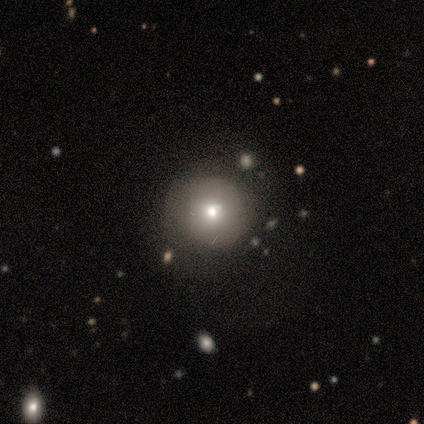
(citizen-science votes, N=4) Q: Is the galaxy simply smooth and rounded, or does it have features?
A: smooth — 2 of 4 (50%, tied with featured or disk).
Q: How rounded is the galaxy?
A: round — 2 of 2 (100%).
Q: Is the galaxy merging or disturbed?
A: none — 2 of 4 (50%).